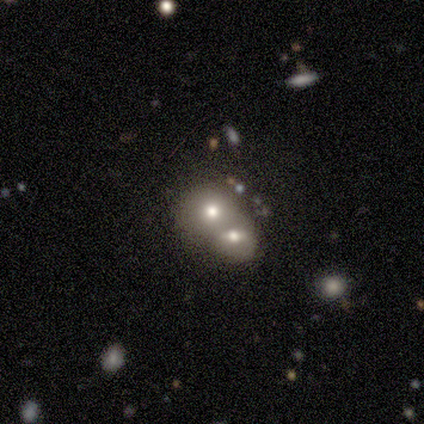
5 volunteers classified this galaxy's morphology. Smooth or featured? 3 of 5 (60%) said featured or disk. Edge-on disk? 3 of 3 (100%) said no. Bar? 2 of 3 (67%) said no. Spiral arms? 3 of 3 (100%) said no. Bulge size? 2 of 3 (67%) said moderate. Merging? 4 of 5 (80%) said merger.